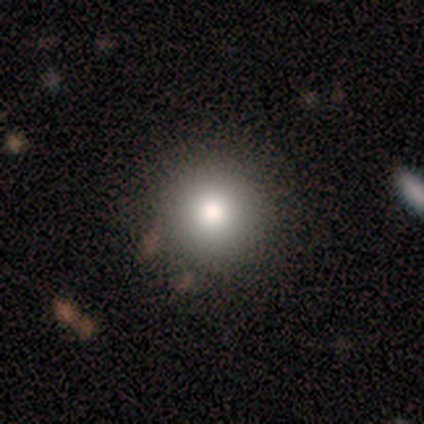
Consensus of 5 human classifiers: smooth 80%, featured or disk 20%, star or artifact 0%. Down the decision tree: how rounded — round (75%); merging — none (100%).